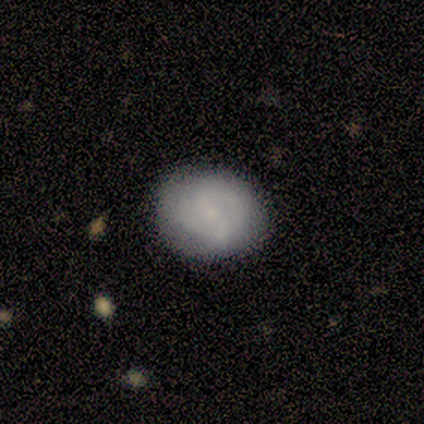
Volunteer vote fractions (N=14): Overall: smooth (57%; featured or disk 43%). How rounded: round (62%; in between 38%). Merging: none (86%).